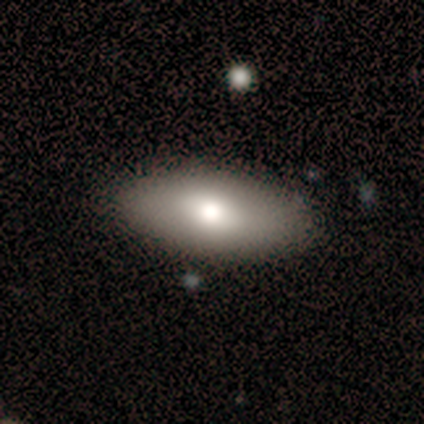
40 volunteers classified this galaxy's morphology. Smooth or featured? 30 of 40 (75%) said smooth. How rounded? 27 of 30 (90%) said in between. Merging? 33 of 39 (85%) said none.